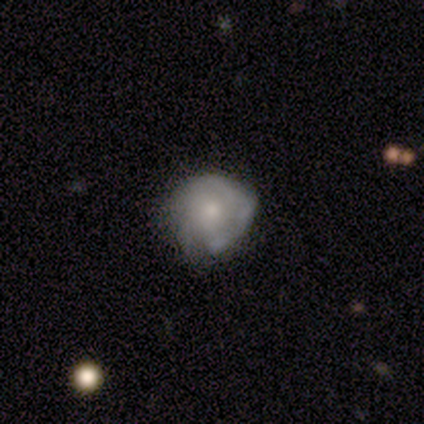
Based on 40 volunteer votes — Overall: featured or disk (55%; smooth 40%). Edge-on disk: no (91%). Bar: no (80%). Spiral arms: yes (60%; no 40%). Spiral arm count: can't tell (58%). Spiral winding: tight (58%; loose 25%). Bulge size: small (50%; moderate 35%). Merging: none (58%; minor disturbance 32%).